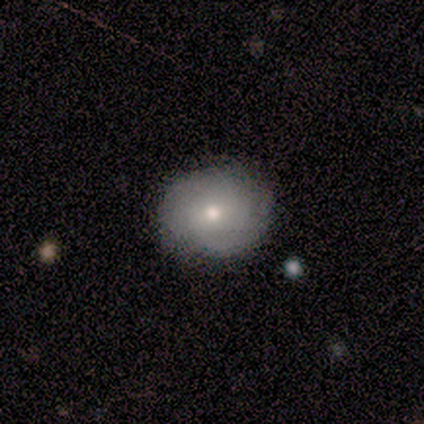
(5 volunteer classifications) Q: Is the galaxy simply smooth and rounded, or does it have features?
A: smooth — 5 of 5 (100%).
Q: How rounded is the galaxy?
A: round — 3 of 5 (60%).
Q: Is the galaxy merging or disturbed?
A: none — 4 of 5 (80%).